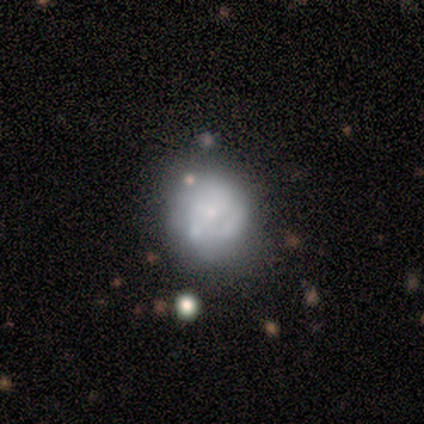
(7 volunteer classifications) Overall: featured or disk (57%; smooth 29%). Edge-on disk: no (100%). Bar: no (100%). Spiral arms: no (75%). Bulge size: small (75%). Merging: minor disturbance (50%; none 33%).